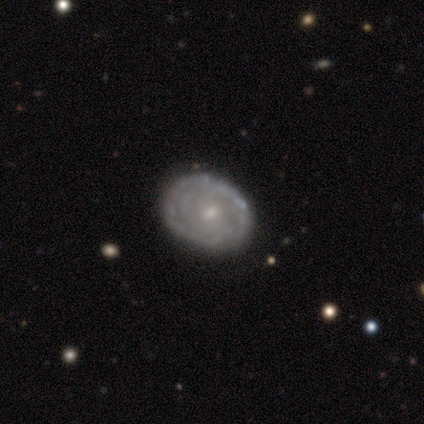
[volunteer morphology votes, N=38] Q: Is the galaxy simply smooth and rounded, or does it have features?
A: featured or disk — 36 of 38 (95%).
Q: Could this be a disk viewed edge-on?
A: no — 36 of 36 (100%).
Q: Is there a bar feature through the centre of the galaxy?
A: no — 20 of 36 (56%).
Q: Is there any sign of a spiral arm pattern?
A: yes — 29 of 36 (81%).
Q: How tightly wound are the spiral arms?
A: tight — 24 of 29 (83%).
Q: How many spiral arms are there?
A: can't tell — 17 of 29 (59%).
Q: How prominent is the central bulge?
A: small — 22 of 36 (61%).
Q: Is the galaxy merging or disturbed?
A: none — 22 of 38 (58%).